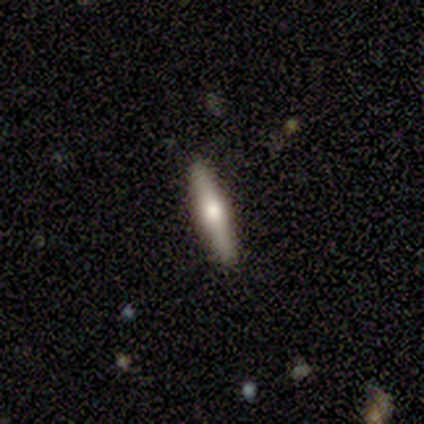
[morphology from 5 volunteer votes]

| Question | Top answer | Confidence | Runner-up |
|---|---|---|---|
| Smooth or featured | smooth | 80% | featured or disk (20%) |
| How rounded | cigar-shaped | 100% | — |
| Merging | none | 100% | — |